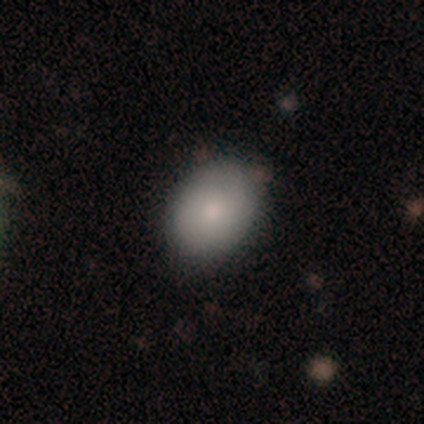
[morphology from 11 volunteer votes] Q: Smooth or featured?
A: smooth (73%); runner-up: featured or disk (18%)
Q: How rounded?
A: round (62%); runner-up: in between (38%)
Q: Merging?
A: none (80%); runner-up: minor disturbance (20%)